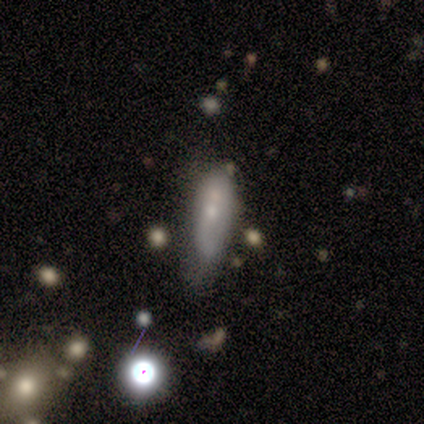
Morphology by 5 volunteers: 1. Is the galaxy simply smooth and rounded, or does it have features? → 40% smooth (tied), 40% featured or disk (tied), 20% star or artifact.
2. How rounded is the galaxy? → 100% in between, 0% round, 0% cigar-shaped.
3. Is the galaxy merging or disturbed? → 75% none, 25% minor disturbance, 0% major disturbance, 0% merger.